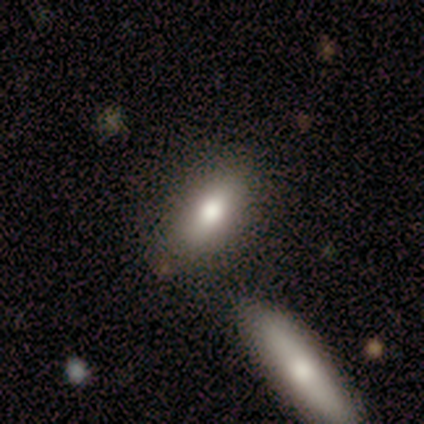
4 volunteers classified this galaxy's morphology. smooth-or-featured: smooth: 100% | featured or disk: 0% | star or artifact: 0%
  how-rounded: in between: 75% | cigar-shaped: 25% | round: 0%
  merging: none: 100% | minor disturbance: 0% | major disturbance: 0% | merger: 0%